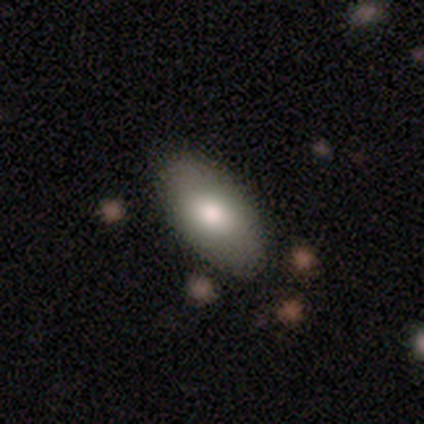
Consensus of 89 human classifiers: Smooth or featured? smooth (78%)
How rounded? in between (97%)
Merging? none (94%)